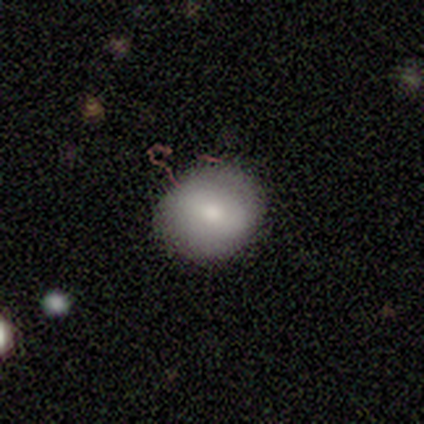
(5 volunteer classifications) smooth-or-featured: smooth: 40% (tied) | featured or disk: 40% (tied) | star or artifact: 20%
  how-rounded: in between: 100% | round: 0% | cigar-shaped: 0%
  merging: none: 100% | minor disturbance: 0% | major disturbance: 0% | merger: 0%